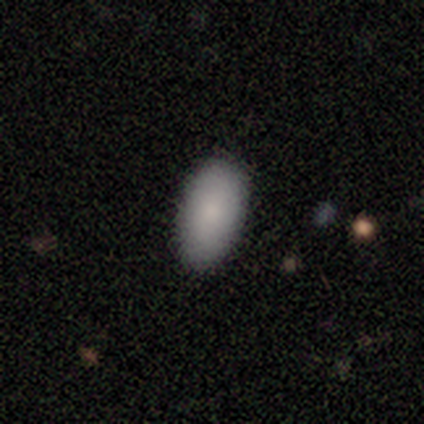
This is clearly a smooth galaxy (92%). How rounded: clearly in between (93%). Merging: possibly none (58%).